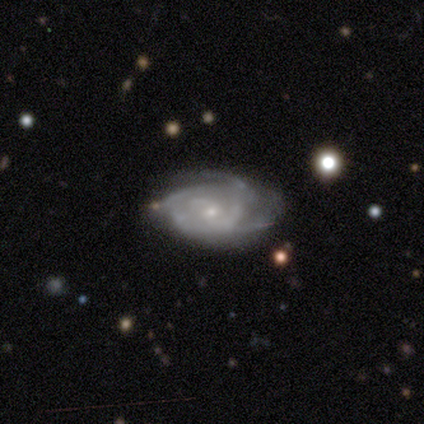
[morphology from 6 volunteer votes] Overall: featured or disk (100%). Edge-on disk: no (100%). Bar: no (83%). Spiral arms: yes (100%). Spiral arm count: can't tell (50%; 3 33%). Spiral winding: tight (50%, tied with medium). Bulge size: small (83%). Merging: major disturbance (50%; none 33%).